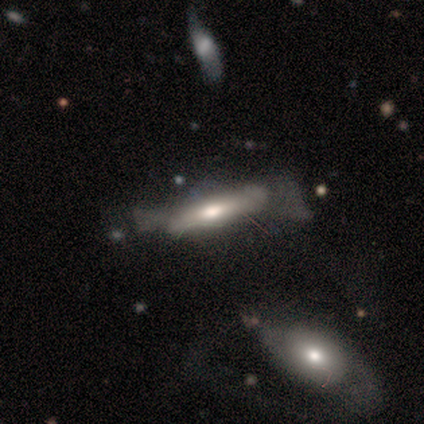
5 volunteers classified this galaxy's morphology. A featured or disk galaxy (60%) viewed edge-on (67%) with no central bulge (50%, tied with rounded).

Vote fractions:
- Smooth or featured? featured or disk: 60% / smooth: 40% / star or artifact: 0%
- Edge-on disk? yes: 67% / no: 33%
- Edge-on bulge? none: 50% (tied) / rounded: 50% (tied) / boxy: 0%
- Merging? minor disturbance: 80% / none: 20% / major disturbance: 0% / merger: 0%